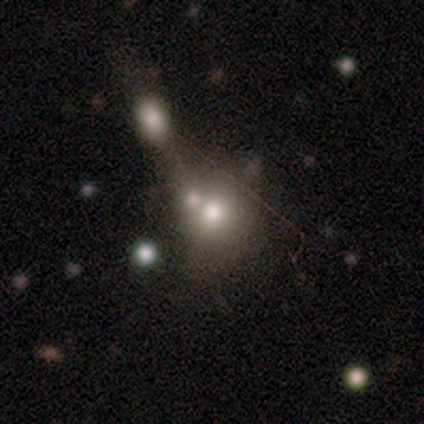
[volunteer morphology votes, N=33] A smooth galaxy with no disk features (79%) that is round (77%).

Vote fractions:
- Smooth or featured? smooth: 79% / featured or disk: 12% / star or artifact: 9%
- How rounded? round: 77% / in between: 19% / cigar-shaped: 4%
- Merging? merger: 50% / none: 0% / minor disturbance: 0% / major disturbance: 0%